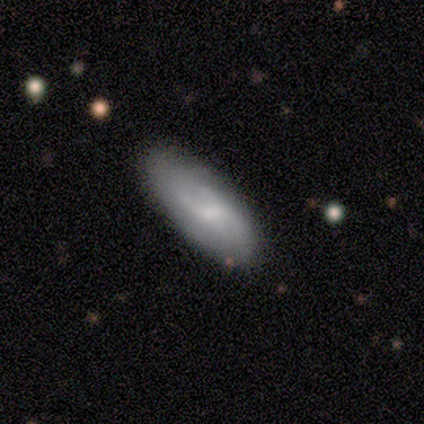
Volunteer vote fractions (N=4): Volunteers were most divided on "spiral winding" (2-way tie): medium: 50%, loose: 50%, tight: 0%. More confident: edge-on disk — no (100%); spiral arm count — can't tell (100%); smooth or featured — featured or disk (75%); merging — none (75%); bar — weak (67%); spiral arms — yes (67%); bulge size — moderate (67%).